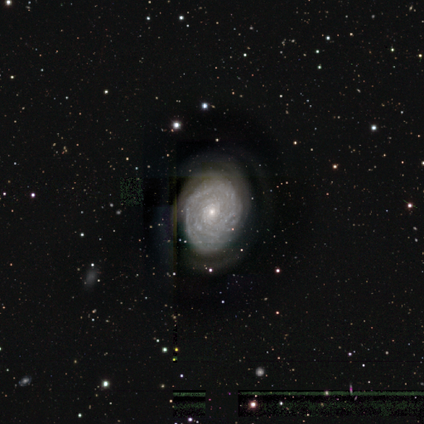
Volunteers were most divided on "spiral arms": no: 56%, yes: 44%. More confident: edge-on disk — no (90%); bulge size — small (78%); smooth or featured — featured or disk (77%); bar — no (67%); merging — none (64%).